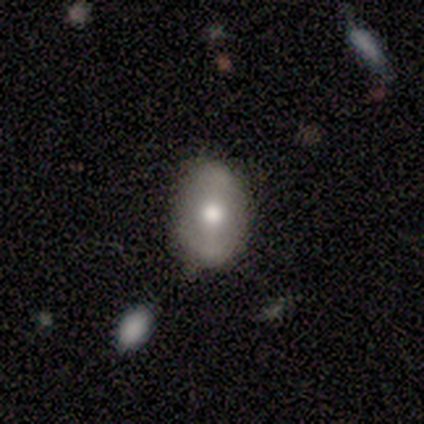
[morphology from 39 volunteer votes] A featured or disk galaxy (56%) with a strong bar (37%), no spiral arms (53%) and a moderate central bulge (63%).

Vote fractions:
- Smooth or featured? featured or disk: 56% / smooth: 38% / star or artifact: 5%
- Edge-on disk? no: 86% / yes: 14%
- Bar? strong: 37% / weak: 32% / no: 32%
- Spiral arms? no: 53% / yes: 47%
- Bulge size? moderate: 63% / large: 21% / small: 11% / dominant: 5% / none: 0%
- Merging? none: 78% / minor disturbance: 19% / major disturbance: 3% / merger: 0%